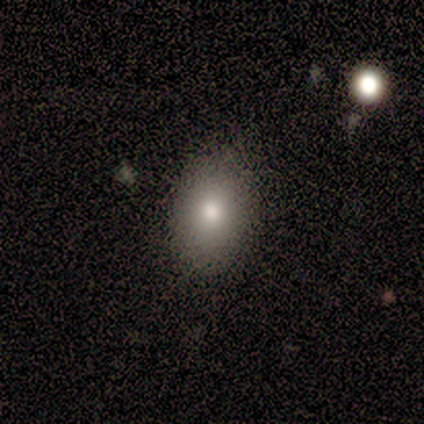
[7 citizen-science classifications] Smooth or featured? smooth (100%)
How rounded? in between (100%)
Merging? none (86%)